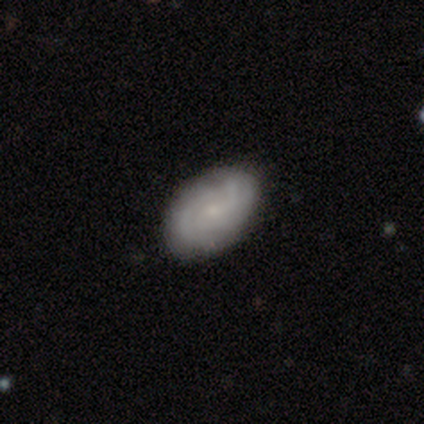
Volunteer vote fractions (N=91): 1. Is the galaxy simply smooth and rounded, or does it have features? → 60% featured or disk, 36% smooth, 3% star or artifact.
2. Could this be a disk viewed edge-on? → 95% no, 5% yes.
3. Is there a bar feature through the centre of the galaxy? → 63% no, 37% weak, 0% strong.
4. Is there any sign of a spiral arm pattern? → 94% yes, 6% no.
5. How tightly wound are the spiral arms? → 61% tight, 35% medium, 4% loose.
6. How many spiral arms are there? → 37% can't tell, 29% 3, 24% 2, 6% 4, 2% 1, 2% more than 4.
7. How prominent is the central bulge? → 79% small, 12% moderate, 10% none, 0% dominant, 0% large.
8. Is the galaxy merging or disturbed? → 84% none, 11% minor disturbance, 2% major disturbance, 2% merger.